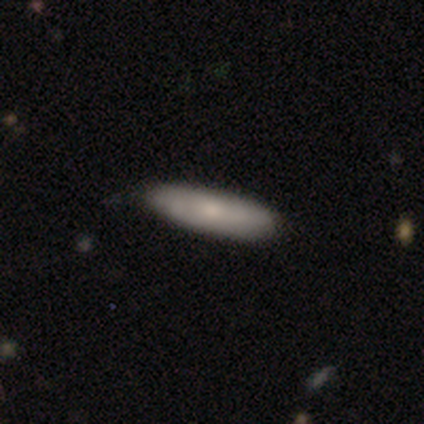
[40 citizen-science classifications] Smooth or featured? 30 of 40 (75%) said smooth. How rounded? 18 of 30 (60%) said cigar-shaped. Merging? 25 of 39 (64%) said none.